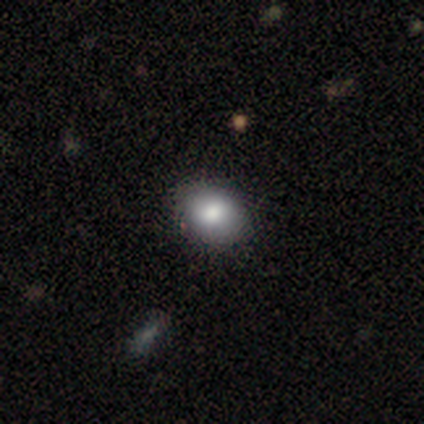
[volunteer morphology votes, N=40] Smooth or featured?
  - smooth: 75% *
  - star or artifact: 15%
  - featured or disk: 10%
How rounded?
  - in between: 87% *
  - round: 13%
  - cigar-shaped: 0%
Merging?
  - none: 85% *
  - minor disturbance: 15%
  - major disturbance: 0%
  - merger: 0%